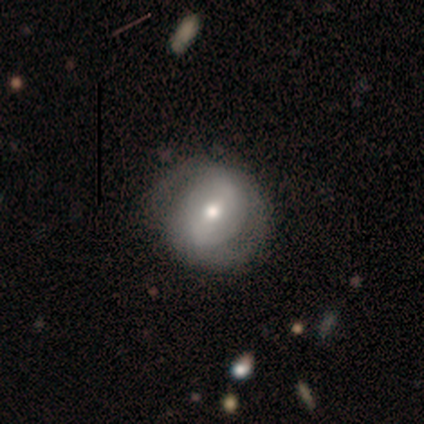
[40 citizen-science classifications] A featured or disk galaxy (62%) with a strong bar (36%, tied with weak), 2 (79%) tight (47%) spiral arms (76%) and a moderate central bulge (64%).

Vote fractions:
- Smooth or featured? featured or disk: 62% / smooth: 35% / star or artifact: 2%
- Edge-on disk? no: 100% / yes: 0%
- Bar? strong: 36% (tied) / weak: 36% (tied) / no: 28%
- Spiral arms? yes: 76% / no: 24%
- Spiral winding? tight: 47% / loose: 32% / medium: 21%
- Spiral arm count? 2: 79% / can't tell: 21% / 1: 0% / 3: 0% / 4: 0% / more than 4: 0%
- Bulge size? moderate: 64% / small: 20% / dominant: 8% / large: 8% / none: 0%
- Merging? none: 56% / minor disturbance: 8% / major disturbance: 5% / merger: 0%